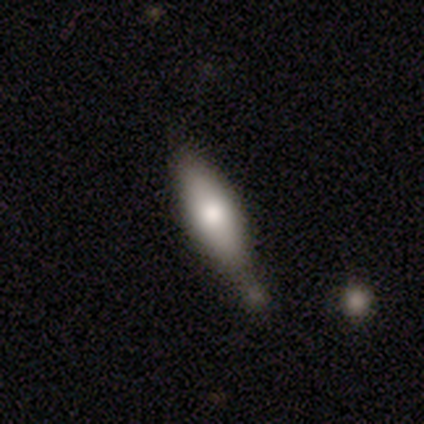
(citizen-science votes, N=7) smooth_or_featured: smooth (p=0.57) [alt: featured or disk p=0.43]
how_rounded: in between (p=0.50) [tied with: cigar-shaped p=0.50]
merging: none (p=0.71) [alt: major disturbance p=0.14]